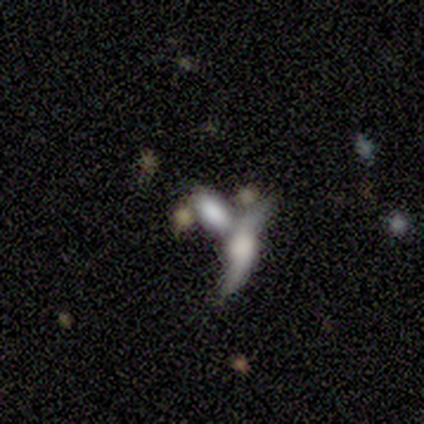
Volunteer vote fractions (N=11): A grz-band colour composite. It shows a featured or disk galaxy (64%) with a weak bar (40%, tied with no), 2 (100%) loose (100%) spiral arms (80%) and no central bulge (40%). Merging: merger (64%).